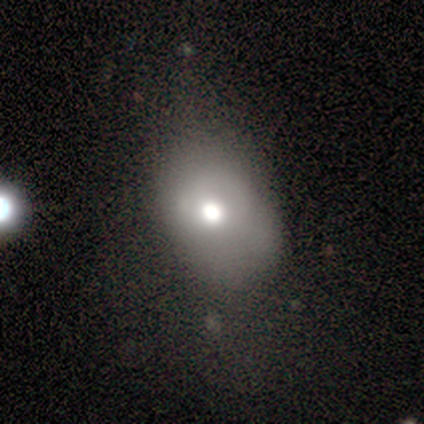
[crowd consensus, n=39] This appears to be a smooth galaxy with no disk features (77%) that is in between round and cigar-shaped (87%). Merging: none (31%).